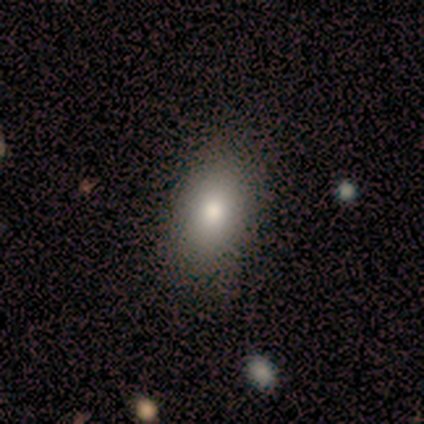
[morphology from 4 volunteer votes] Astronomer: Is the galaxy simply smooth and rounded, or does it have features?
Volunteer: smooth — 100%.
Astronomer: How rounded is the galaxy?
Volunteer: in between — 100%.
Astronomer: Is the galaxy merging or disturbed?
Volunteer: none — 100%.